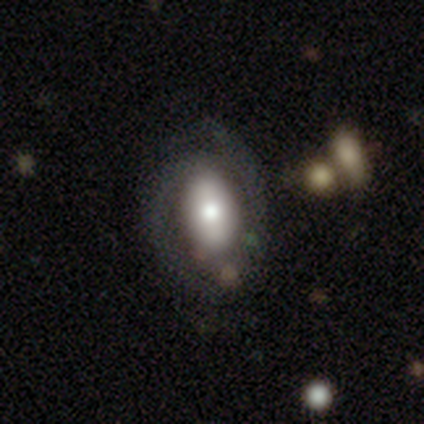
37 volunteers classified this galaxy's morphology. Smooth or featured? 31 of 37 (84%) said featured or disk. Edge-on disk? 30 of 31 (97%) said no. Bar? 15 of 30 (50%) said no. Spiral arms? 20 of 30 (67%) said yes. Spiral winding? 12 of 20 (60%) said tight. Spiral arm count? 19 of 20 (95%) said 2. Bulge size? 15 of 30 (50%) said moderate. Merging? 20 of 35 (57%) said none.